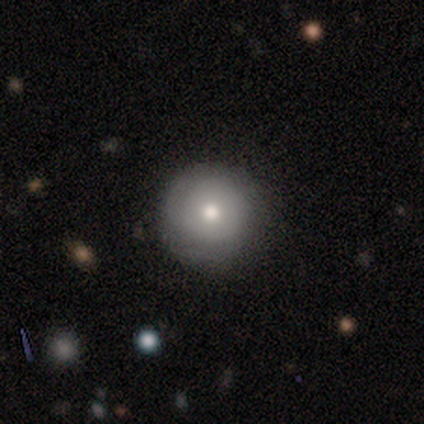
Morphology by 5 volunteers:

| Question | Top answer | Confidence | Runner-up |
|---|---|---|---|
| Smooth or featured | smooth | 60% | featured or disk (40%) |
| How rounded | round | 100% | — |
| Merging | none | 100% | — |